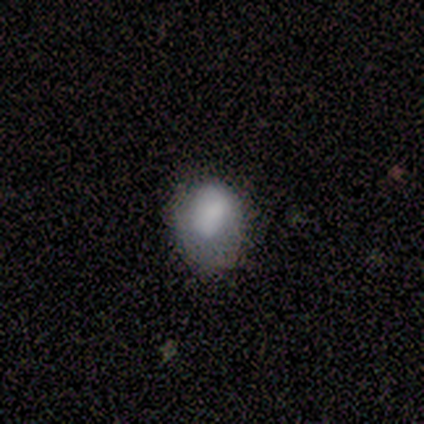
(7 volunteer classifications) Smooth or featured?
  - smooth: 100% *
  - featured or disk: 0%
  - star or artifact: 0%
How rounded?
  - round: 57% *
  - in between: 29%
  - cigar-shaped: 14%
Merging?
  - none: 57% *
  - minor disturbance: 43%
  - major disturbance: 0%
  - merger: 0%